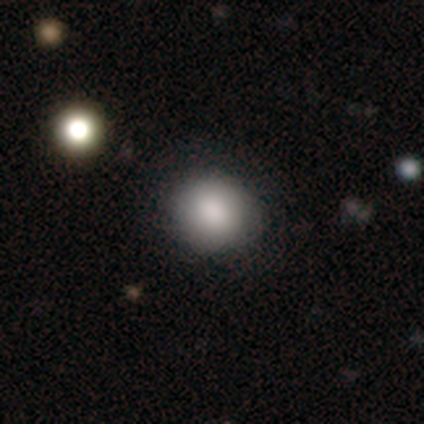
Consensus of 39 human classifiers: Smooth or featured? smooth (87%)
How rounded? round (91%)
Merging? none (83%)